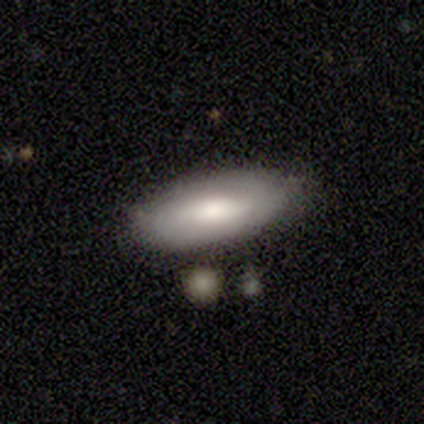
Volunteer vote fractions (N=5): Volunteers were most divided on "smooth or featured": smooth: 80%, featured or disk: 20%, star or artifact: 0%. More confident: how rounded — in between (100%); merging — none (80%).